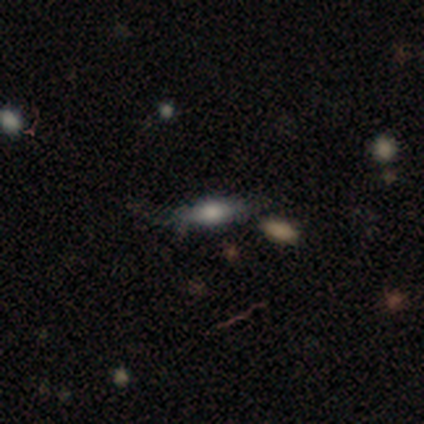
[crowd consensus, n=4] Smooth or featured?
  - smooth: 75% *
  - featured or disk: 25%
  - star or artifact: 0%
How rounded?
  - in between: 67% *
  - cigar-shaped: 33%
  - round: 0%
Merging?
  - none: 100% *
  - minor disturbance: 0%
  - major disturbance: 0%
  - merger: 0%